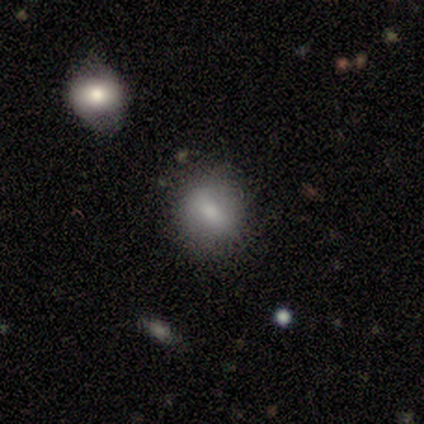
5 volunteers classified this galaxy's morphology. A smooth galaxy with no disk features (60%) that is round (100%). Merging: none (100%).